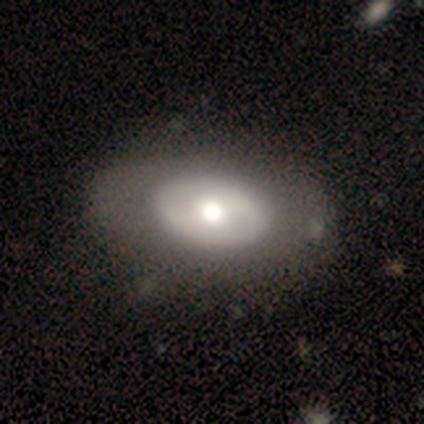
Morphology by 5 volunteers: A smooth galaxy with no disk features (60%) that is in between round and cigar-shaped (100%). Merging: none (50%, tied with minor disturbance).